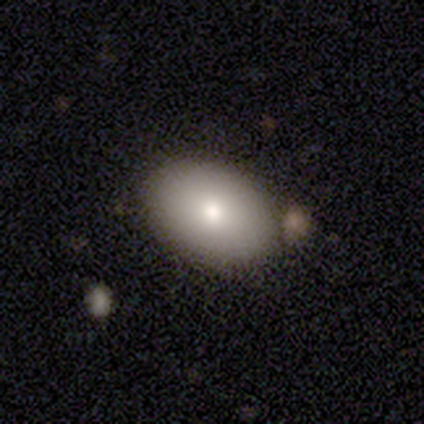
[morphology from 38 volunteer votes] Smooth or featured? smooth (82%)
How rounded? in between (84%)
Merging? none (78%)